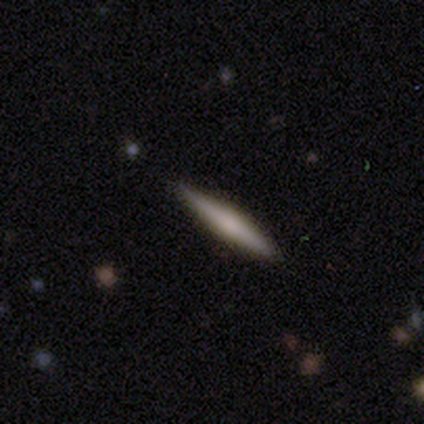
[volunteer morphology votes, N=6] smooth_or_featured: featured or disk (p=1.00)
disk_edge_on: yes (p=1.00)
edge_on_bulge: none (p=0.50) [tied with: rounded p=0.50]
merging: none (p=0.83) [alt: major disturbance p=0.17]